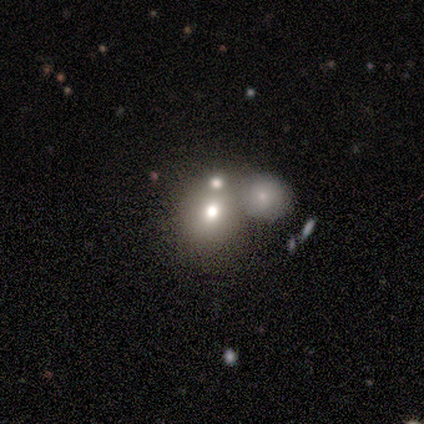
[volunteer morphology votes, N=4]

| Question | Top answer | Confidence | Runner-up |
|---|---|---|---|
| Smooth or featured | smooth | 50% | tied: featured or disk (50%) |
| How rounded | round | 50% | tied: in between (50%) |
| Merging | none | 25% | tied: minor disturbance (25%), major disturbance (25%), merger (25%) |